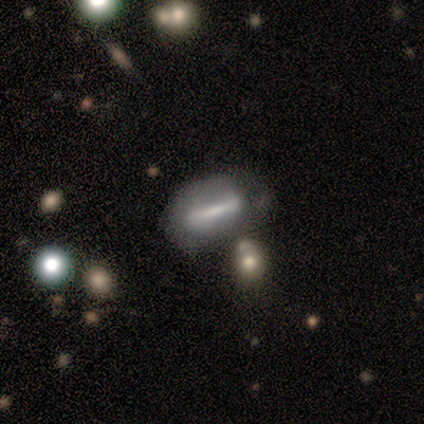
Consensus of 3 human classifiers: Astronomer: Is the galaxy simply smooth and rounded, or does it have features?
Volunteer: featured or disk — 67%.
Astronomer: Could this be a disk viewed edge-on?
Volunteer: yes — 50%, tied with no at 50%.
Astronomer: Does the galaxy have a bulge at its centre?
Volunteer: none — 100%.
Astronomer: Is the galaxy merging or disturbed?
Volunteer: minor disturbance — 67%.